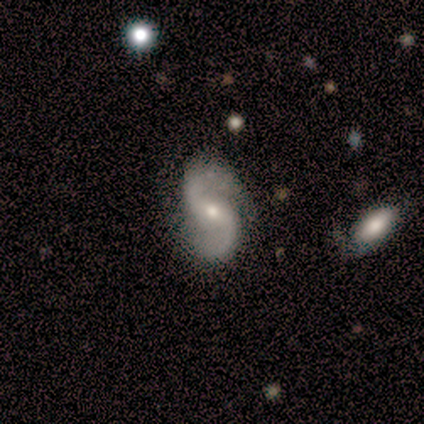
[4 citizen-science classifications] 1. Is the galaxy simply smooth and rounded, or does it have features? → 100% featured or disk, 0% smooth, 0% star or artifact.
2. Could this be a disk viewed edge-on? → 100% no, 0% yes.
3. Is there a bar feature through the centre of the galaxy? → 75% weak, 25% no, 0% strong.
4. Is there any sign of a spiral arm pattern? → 100% yes, 0% no.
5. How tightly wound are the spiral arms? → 75% loose, 25% medium, 0% tight.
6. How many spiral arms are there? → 100% 2, 0% 1, 0% 3, 0% 4, 0% more than 4, 0% can't tell.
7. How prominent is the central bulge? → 50% moderate (tied), 50% small (tied), 0% dominant, 0% large, 0% none.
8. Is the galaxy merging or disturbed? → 100% none, 0% minor disturbance, 0% major disturbance, 0% merger.